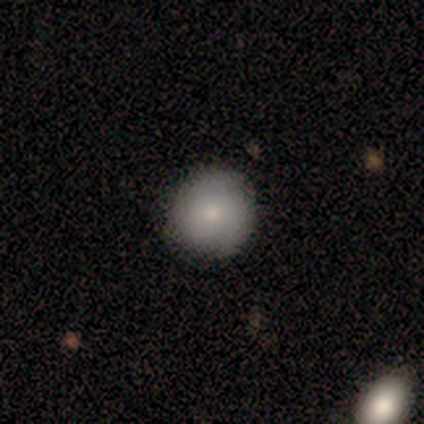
A smooth galaxy with no disk features (50%) that is round (100%). Merging: none (67%).